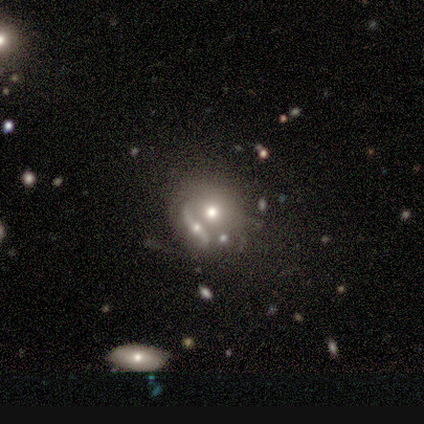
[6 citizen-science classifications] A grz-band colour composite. It shows a smooth galaxy with no disk features (67%) that is round (75%). Merging: none (50%, tied with merger).